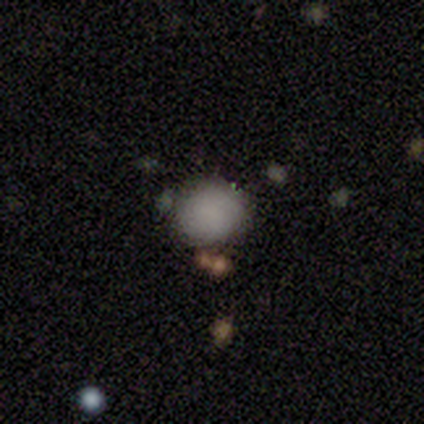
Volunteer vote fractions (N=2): Smooth or featured? 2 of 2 (100%) said smooth. How rounded? 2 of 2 (100%) said round. Merging? 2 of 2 (100%) said none.